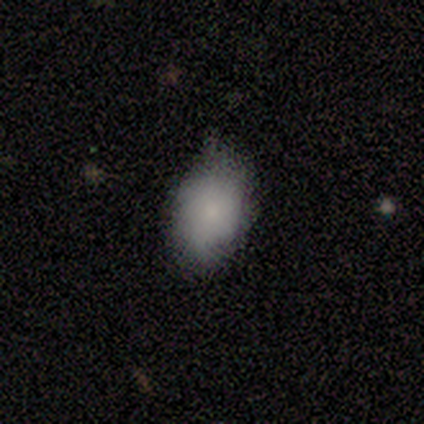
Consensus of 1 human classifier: A smooth galaxy with no disk features (100%) that is in between round and cigar-shaped (100%). Merging: none (100%).